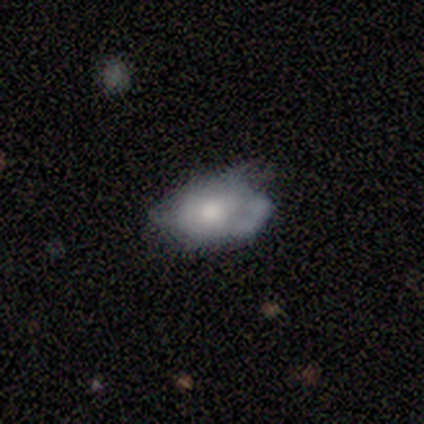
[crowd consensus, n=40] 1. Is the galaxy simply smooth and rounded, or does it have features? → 50% smooth, 45% featured or disk, 5% star or artifact.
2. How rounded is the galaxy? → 90% in between, 10% round, 0% cigar-shaped.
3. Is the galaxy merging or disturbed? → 53% minor disturbance, 32% none, 13% major disturbance, 3% merger.